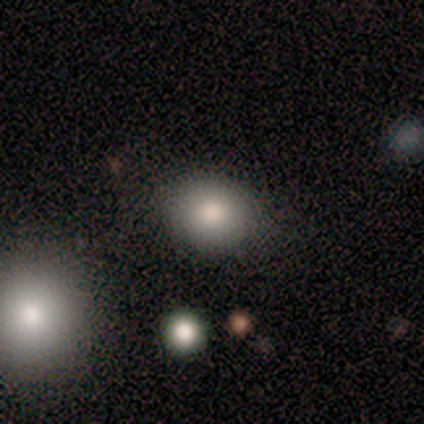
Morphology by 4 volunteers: Overall: smooth (100%). How rounded: round (75%). Merging: none (75%).